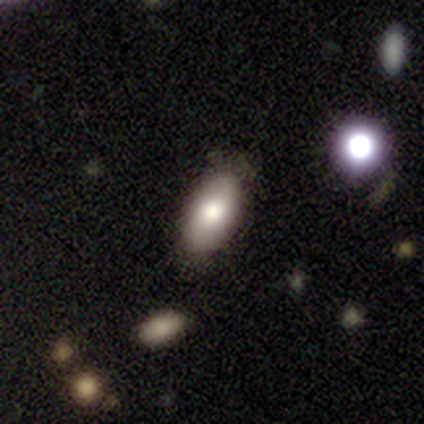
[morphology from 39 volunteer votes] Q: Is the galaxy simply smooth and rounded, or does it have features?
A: smooth — 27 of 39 (69%).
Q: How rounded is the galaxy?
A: in between — 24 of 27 (89%).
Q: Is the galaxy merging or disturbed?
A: none — 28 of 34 (82%).